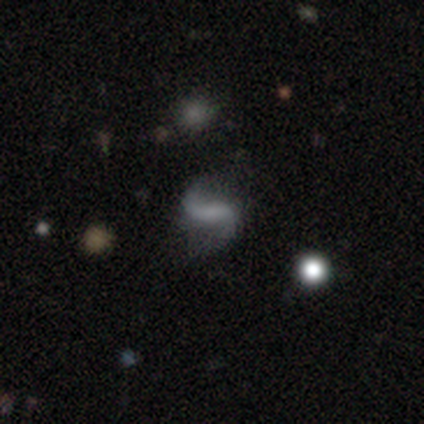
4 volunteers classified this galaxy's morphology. A featured or disk galaxy (100%) with a strong bar (75%), 2 (100%) loose (100%) spiral arms (100%) and no central bulge (100%).

Vote fractions:
- Smooth or featured? featured or disk: 100% / smooth: 0% / star or artifact: 0%
- Edge-on disk? no: 100% / yes: 0%
- Bar? strong: 75% / no: 25% / weak: 0%
- Spiral arms? yes: 100% / no: 0%
- Spiral winding? loose: 100% / tight: 0% / medium: 0%
- Spiral arm count? 2: 100% / 1: 0% / 3: 0% / 4: 0% / more than 4: 0% / can't tell: 0%
- Bulge size? none: 100% / dominant: 0% / large: 0% / moderate: 0% / small: 0%
- Merging? none: 50% (tied) / minor disturbance: 50% (tied) / major disturbance: 0% / merger: 0%